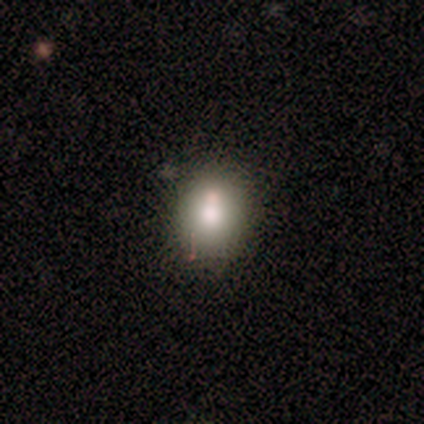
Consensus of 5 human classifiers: Smooth or featured: smooth — 80% (featured or disk — 20%)
How rounded: in between — 75% (round — 25%)
Merging: none — 100%